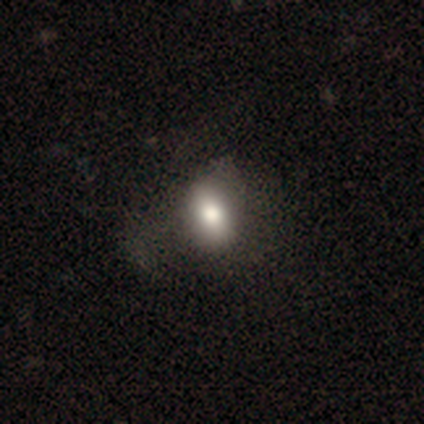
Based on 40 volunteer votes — Smooth or featured? smooth (80%)
How rounded? in between (69%)
Merging? none (32%)